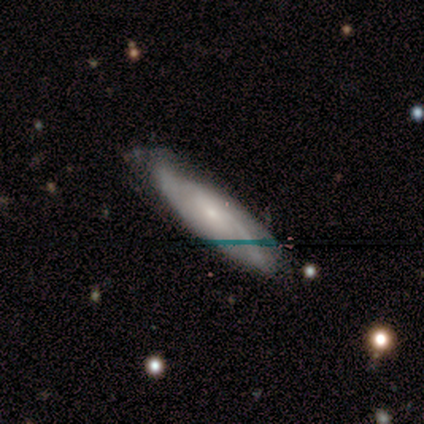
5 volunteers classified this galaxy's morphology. smooth_or_featured: featured or disk (p=0.80) [alt: smooth p=0.20]
disk_edge_on: no (p=0.75) [alt: yes p=0.25]
bar: no (p=1.00)
has_spiral_arms: yes (p=1.00)
spiral_winding: loose (p=0.67) [alt: medium p=0.33]
spiral_arm_count: 2 (p=0.67) [alt: can't tell p=0.33]
bulge_size: small (p=0.67) [alt: none p=0.33]
merging: minor disturbance (p=0.60) [alt: none p=0.40]